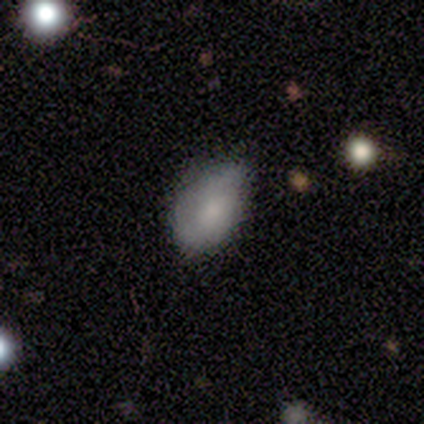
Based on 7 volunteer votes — This is clearly a smooth galaxy (86%). How rounded: clearly in between (100%). Merging: likely minor disturbance (67%).